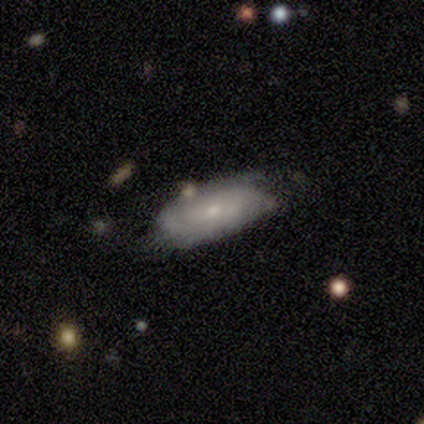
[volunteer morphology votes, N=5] featured or disk 60%, smooth 40%, star or artifact 0%. Down the decision tree: edge-on disk — no (100%); bar — weak (67%); spiral arms — yes (100%); spiral arm count — 2 (100%); spiral winding — tight (33%, tied with medium and loose); bulge size — small (100%); merging — none (80%).